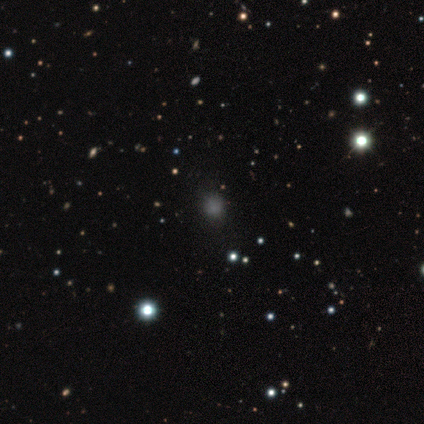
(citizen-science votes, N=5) This appears to be a smooth galaxy with no disk features (60%) that is round (67%). Merging: none (100%).